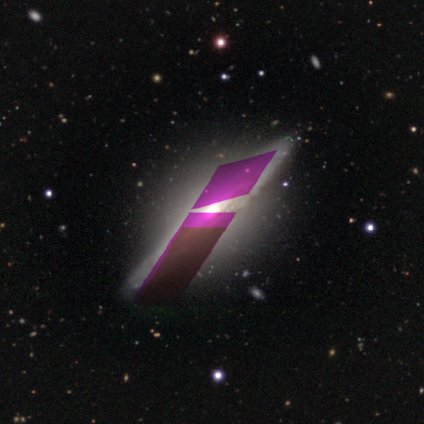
featured or disk 60%, smooth 20%, star or artifact 20%. Down the decision tree: edge-on disk — yes (67%); edge-on bulge — boxy (50%, tied with rounded); merging — none (75%).